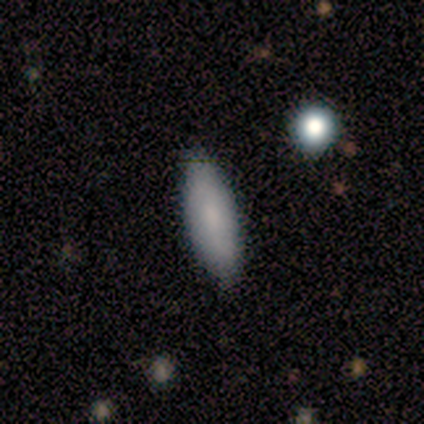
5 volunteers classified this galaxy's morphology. This appears to be a smooth galaxy with no disk features (100%) that is in between round and cigar-shaped (60%). Merging: none (80%).